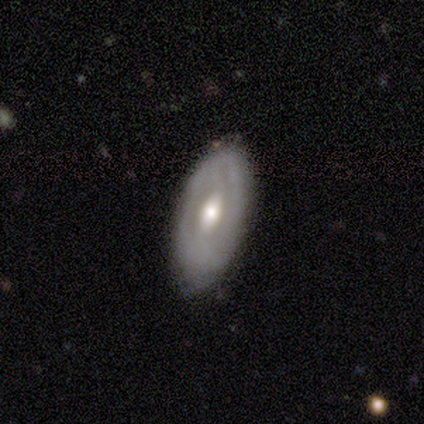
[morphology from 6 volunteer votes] Smooth or featured? 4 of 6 (67%) said featured or disk. Edge-on disk? 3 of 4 (75%) said no. Bar? 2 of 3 (67%) said no. Spiral arms? 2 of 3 (67%) said no. Bulge size? 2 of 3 (67%) said moderate. Merging? 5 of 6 (83%) said none.